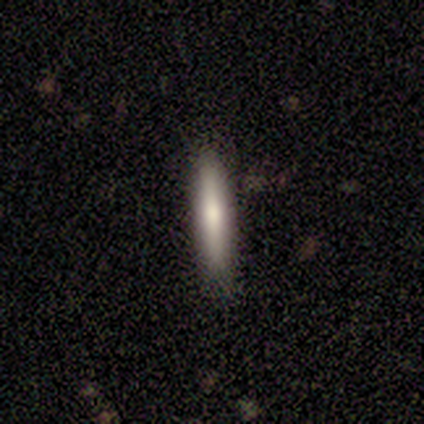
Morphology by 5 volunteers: This appears to be a smooth galaxy with no disk features (100%) that is cigar-shaped (100%). Merging: none (100%).